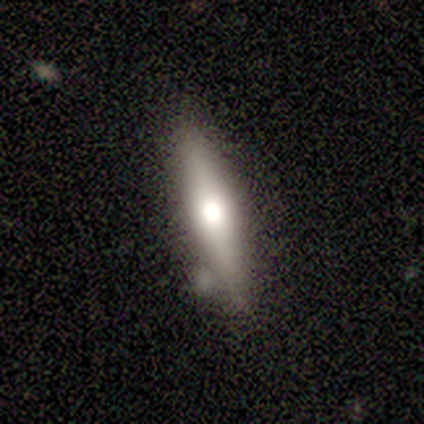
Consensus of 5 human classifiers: This is likely a smooth galaxy (60%). How rounded: likely cigar-shaped (67%). Merging: clearly none (100%).